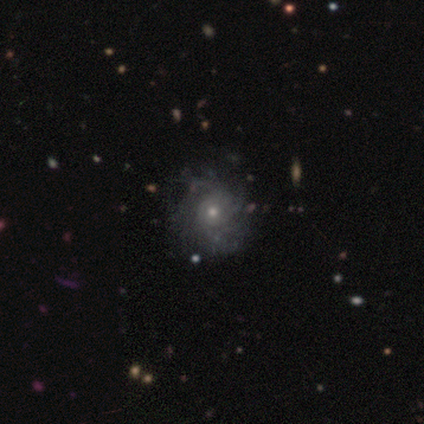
Smooth or featured? 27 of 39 (69%) said featured or disk. Edge-on disk? 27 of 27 (100%) said no. Bar? 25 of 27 (93%) said no. Spiral arms? 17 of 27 (63%) said yes. Spiral winding? 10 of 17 (59%) said tight. Spiral arm count? 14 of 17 (82%) said can't tell. Bulge size? 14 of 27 (52%) said small. Merging? 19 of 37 (51%) said none.